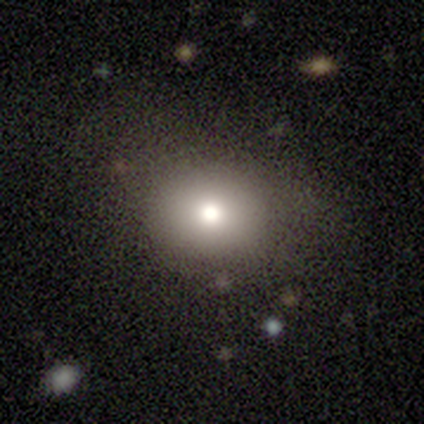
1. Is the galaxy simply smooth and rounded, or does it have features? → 68% smooth, 18% star or artifact, 13% featured or disk.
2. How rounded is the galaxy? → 73% round, 27% in between, 0% cigar-shaped.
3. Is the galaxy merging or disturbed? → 65% none, 19% minor disturbance, 13% major disturbance, 3% merger.